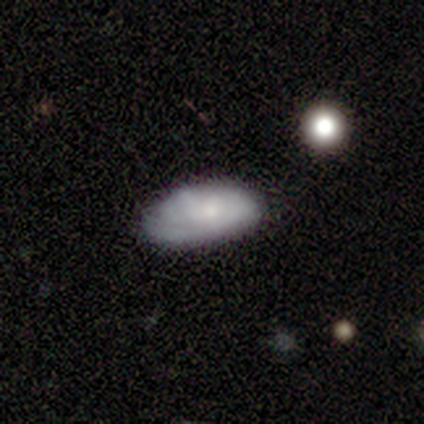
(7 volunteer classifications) Smooth or featured: smooth — 71% (featured or disk — 29%)
How rounded: in between — 100%
Merging: none — 71% (minor disturbance — 29%)